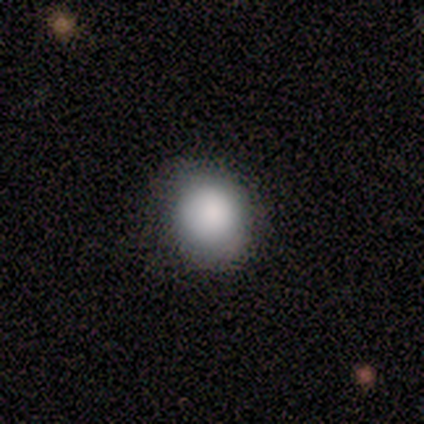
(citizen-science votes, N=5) A smooth galaxy with no disk features (100%) that is round (100%). Merging: none (60%).